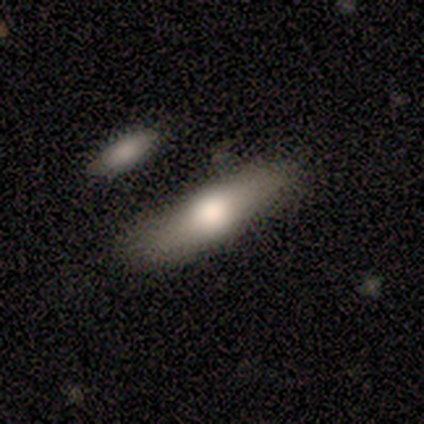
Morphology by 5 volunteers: smooth_or_featured: featured or disk (p=0.60) [alt: smooth p=0.40]
disk_edge_on: yes (p=0.67) [alt: no p=0.33]
edge_on_bulge: rounded (p=1.00)
merging: none (p=0.60) [alt: minor disturbance p=0.40]